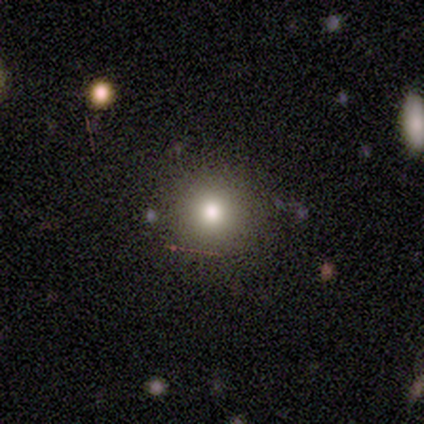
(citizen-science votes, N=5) Smooth or featured?
  - featured or disk: 40% * (tied)
  - star or artifact: 40% * (tied)
  - smooth: 20%
Edge-on disk?
  - no: 100% *
  - yes: 0%
Bar?
  - no: 100% *
  - strong: 0%
  - weak: 0%
Spiral arms?
  - no: 100% *
  - yes: 0%
Bulge size?
  - moderate: 100% *
  - dominant: 0%
  - large: 0%
  - small: 0%
  - none: 0%
Merging?
  - none: 67% *
  - major disturbance: 33%
  - minor disturbance: 0%
  - merger: 0%